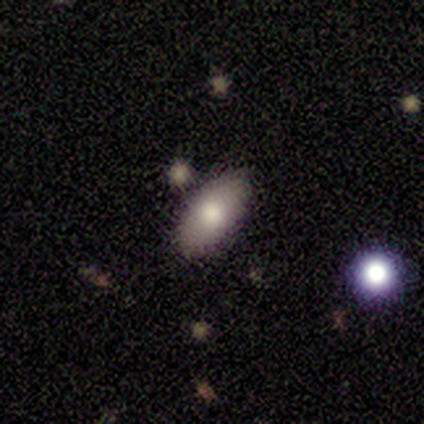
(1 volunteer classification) This appears to be a smooth galaxy with no disk features (100%) that is in between round and cigar-shaped (100%). Merging: none (100%).